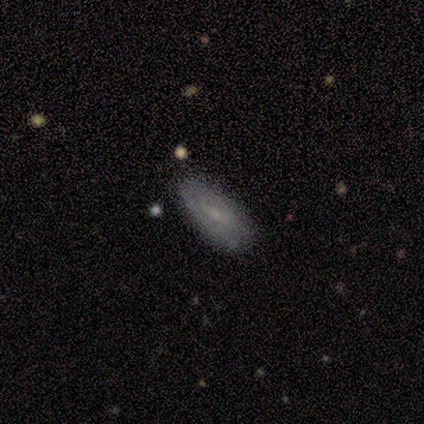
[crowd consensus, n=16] Q: Smooth or featured?
A: featured or disk (62%); runner-up: smooth (38%)
Q: Edge-on disk?
A: no (80%); runner-up: yes (20%)
Q: Bar?
A: weak (50%); runner-up: strong (38%)
Q: Spiral arms?
A: yes (62%); runner-up: no (38%)
Q: Spiral winding?
A: tight (60%); runner-up: medium (20%)
Q: Spiral arm count?
A: can't tell (100%)
Q: Bulge size?
A: small (88%); runner-up: none (12%)
Q: Merging?
A: none (81%); runner-up: minor disturbance (12%)